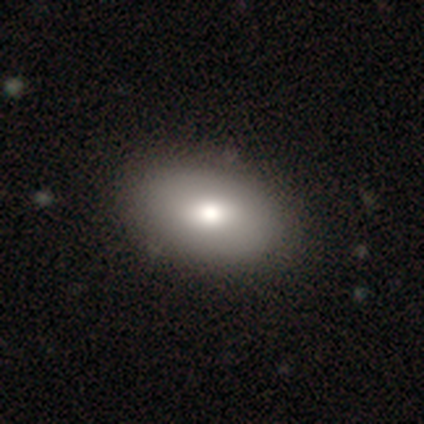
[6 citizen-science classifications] Smooth or featured: smooth — 67% (featured or disk — 17%)
How rounded: in between — 100%
Merging: none — 100%